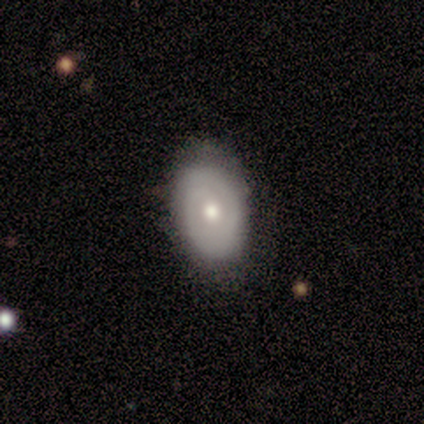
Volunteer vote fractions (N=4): A smooth galaxy with no disk features (75%) that is in between round and cigar-shaped (67%).

Vote fractions:
- Smooth or featured? smooth: 75% / featured or disk: 25% / star or artifact: 0%
- How rounded? in between: 67% / round: 33% / cigar-shaped: 0%
- Merging? minor disturbance: 50% / none: 25% / major disturbance: 25% / merger: 0%